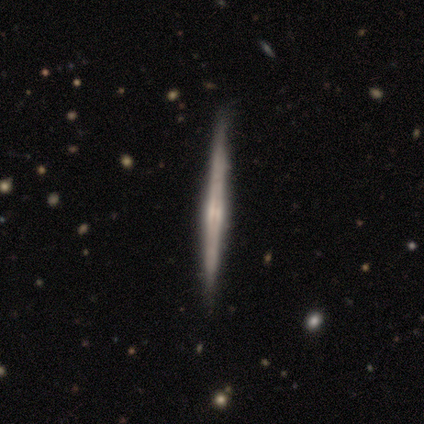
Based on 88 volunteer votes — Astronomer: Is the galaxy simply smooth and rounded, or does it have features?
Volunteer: featured or disk — 76%.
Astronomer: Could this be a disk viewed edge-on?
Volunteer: yes — 99%.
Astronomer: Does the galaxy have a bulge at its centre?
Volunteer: none — 48% (runner-up: rounded, 44%).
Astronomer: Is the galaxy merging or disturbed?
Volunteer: none — 89%.